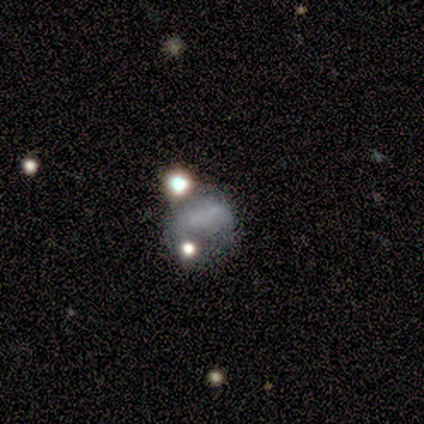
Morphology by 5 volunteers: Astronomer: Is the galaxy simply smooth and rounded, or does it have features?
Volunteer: smooth — 80%.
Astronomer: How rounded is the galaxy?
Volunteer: round — 50%, tied with in between at 50%.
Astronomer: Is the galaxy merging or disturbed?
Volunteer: merger — 50%.